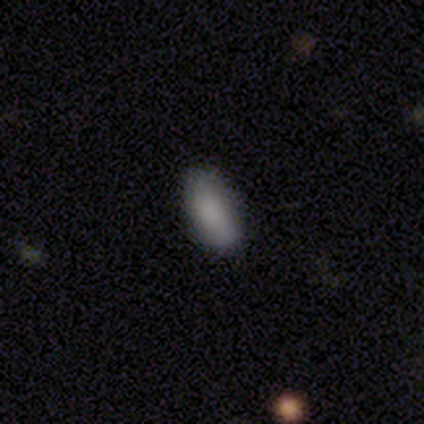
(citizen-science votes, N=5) Morphology: type=smooth (80%); roundness=in between (75%); merging=none (60%).